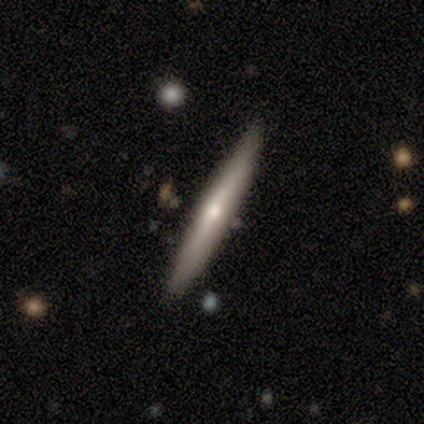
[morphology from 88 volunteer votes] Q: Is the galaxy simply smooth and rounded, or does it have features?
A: featured or disk — 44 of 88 (50%).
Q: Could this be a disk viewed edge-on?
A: yes — 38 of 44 (86%).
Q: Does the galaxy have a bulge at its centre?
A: rounded — 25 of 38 (66%).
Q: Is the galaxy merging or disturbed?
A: none — 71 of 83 (86%).